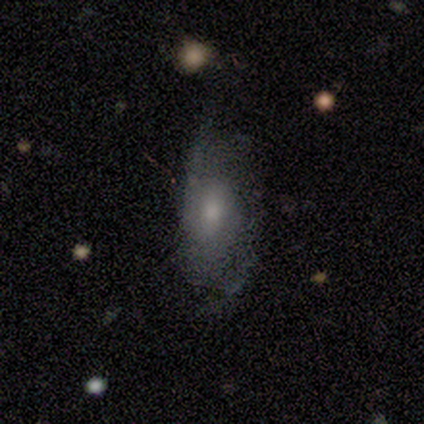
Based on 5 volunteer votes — Smooth or featured?
  - featured or disk: 60% *
  - smooth: 20%
  - star or artifact: 20%
Edge-on disk?
  - no: 100% *
  - yes: 0%
Bar?
  - no: 67% *
  - weak: 33%
  - strong: 0%
Spiral arms?
  - yes: 67% *
  - no: 33%
Spiral winding?
  - tight: 50% * (tied)
  - loose: 50% * (tied)
  - medium: 0%
Spiral arm count?
  - can't tell: 100% *
  - 1: 0%
  - 2: 0%
  - 3: 0%
  - 4: 0%
  - more than 4: 0%
Bulge size?
  - small: 67% *
  - moderate: 33%
  - dominant: 0%
  - large: 0%
  - none: 0%
Merging?
  - none: 50% *
  - minor disturbance: 25%
  - major disturbance: 25%
  - merger: 0%